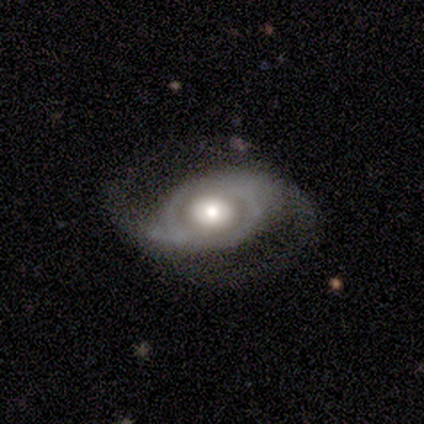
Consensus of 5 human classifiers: This appears to be a featured or disk galaxy (80%) with no bar (75%), 2 (100%) medium (50%, tied with loose) spiral arms (100%) and a moderate central bulge (75%). Merging: none (60%).